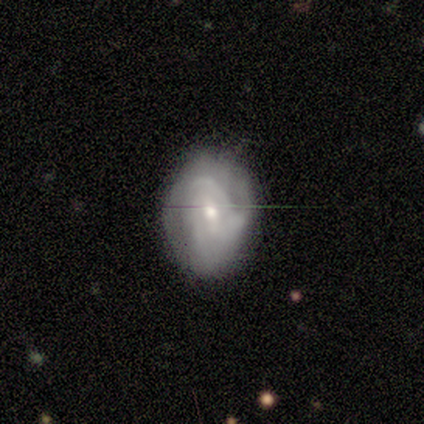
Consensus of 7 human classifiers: This appears to be a featured or disk galaxy (86%) with a weak bar (50%, tied with no), loose (50%) spiral arms (100%) and a small central bulge (67%). Merging: none (83%).